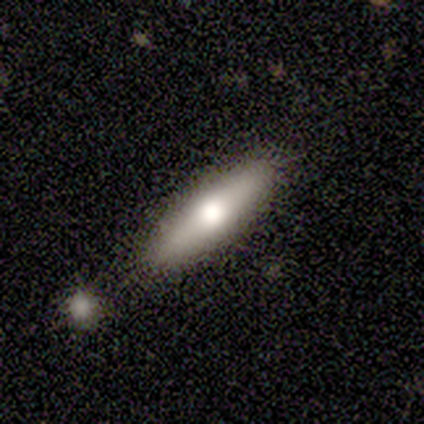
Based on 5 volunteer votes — A smooth galaxy with no disk features (80%) that is cigar-shaped (100%). Merging: none (100%).